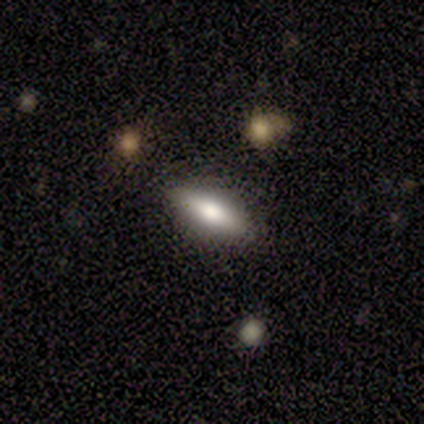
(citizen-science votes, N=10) smooth 70%, featured or disk 20%, star or artifact 10%. Down the decision tree: how rounded — cigar-shaped (57%); merging — none (89%).